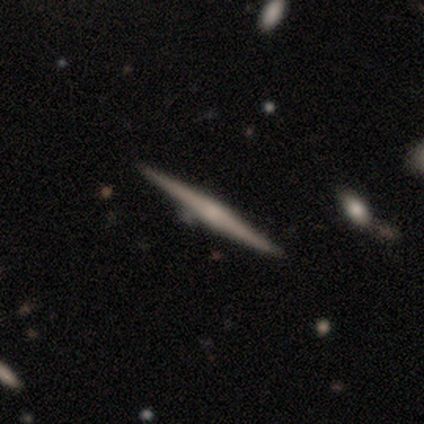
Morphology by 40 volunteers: Smooth or featured?
  - featured or disk: 68% *
  - smooth: 28%
  - star or artifact: 5%
Edge-on disk?
  - yes: 100% *
  - no: 0%
Edge-on bulge?
  - rounded: 56% *
  - none: 37%
  - boxy: 7%
Merging?
  - none: 87% *
  - minor disturbance: 5%
  - merger: 5%
  - major disturbance: 3%